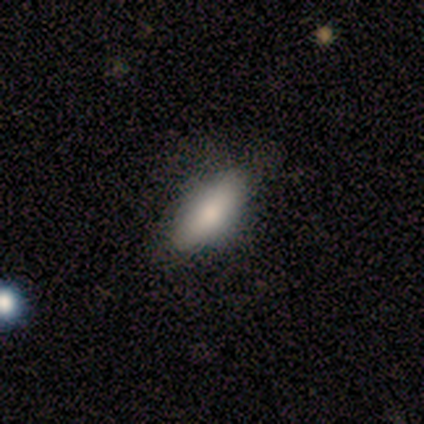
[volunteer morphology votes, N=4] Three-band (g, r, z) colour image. It shows a smooth galaxy with no disk features (100%) that is in between round and cigar-shaped (75%). Merging: none (75%).